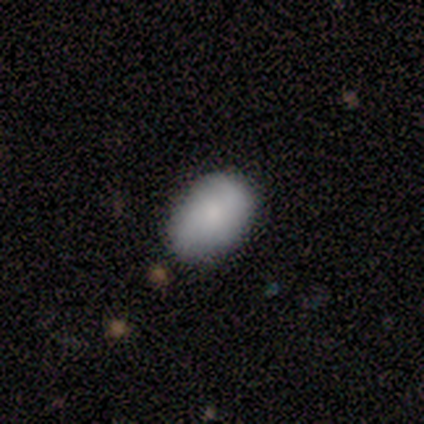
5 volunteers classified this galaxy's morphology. A featured or disk galaxy (60%) with a weak bar (67%), 2 (100%) medium (50%, tied with loose) spiral arms (67%) and a small central bulge (67%). Merging: none (80%).